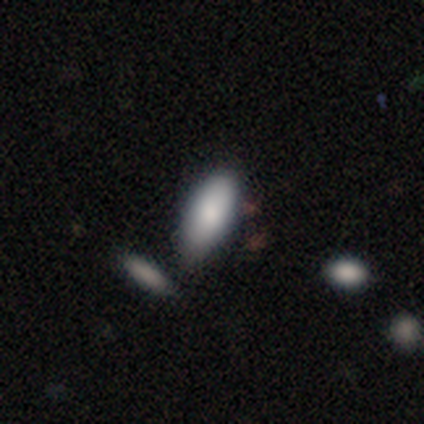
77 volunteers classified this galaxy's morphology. This is clearly a smooth galaxy (90%). How rounded: clearly in between (87%). Merging: possibly none (54%).